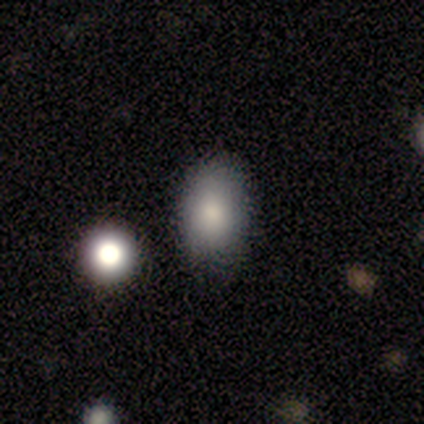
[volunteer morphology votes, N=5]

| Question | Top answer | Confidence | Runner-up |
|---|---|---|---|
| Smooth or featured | smooth | 100% | — |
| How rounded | in between | 100% | — |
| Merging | none | 60% | minor disturbance (40%) |